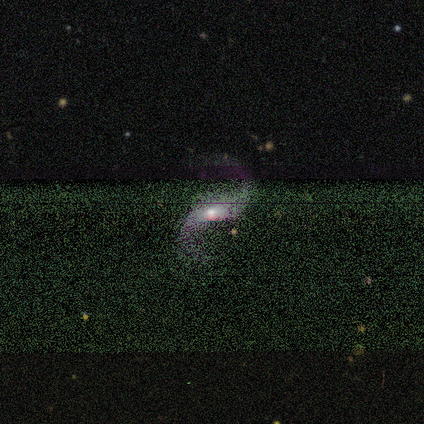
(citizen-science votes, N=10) Volunteers were most divided on "bar" (2-way tie): weak: 38%, no: 38%, strong: 25%. More confident: edge-on disk — no (100%); spiral arms — yes (100%); spiral arm count — 2 (100%); merging — none (100%); spiral winding — loose (88%); smooth or featured — featured or disk (80%); bulge size — small (50%).